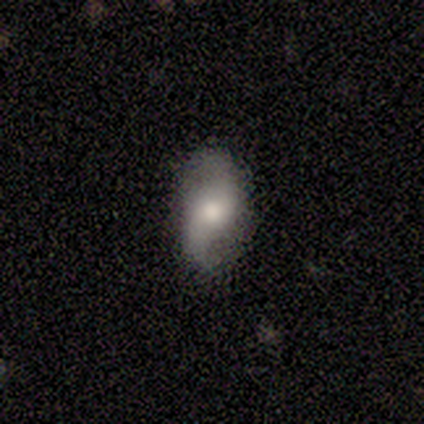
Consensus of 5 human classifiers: Smooth or featured? 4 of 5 (80%) said featured or disk. Edge-on disk? 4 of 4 (100%) said no. Bar? 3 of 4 (75%) said no. Spiral arms? 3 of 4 (75%) said yes. Spiral winding? 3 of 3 (100%) said loose. Spiral arm count? 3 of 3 (100%) said 2. Bulge size? 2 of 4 (50%) said moderate. Merging? 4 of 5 (80%) said none.